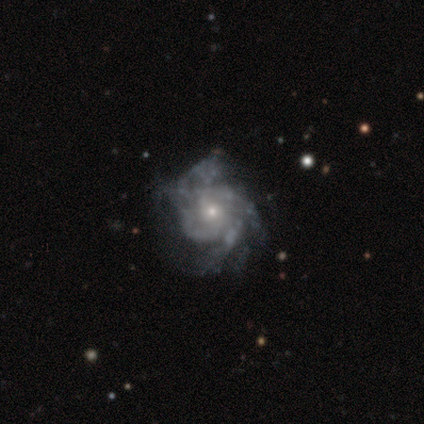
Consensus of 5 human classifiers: Smooth or featured?
  - featured or disk: 80% *
  - star or artifact: 20%
  - smooth: 0%
Edge-on disk?
  - no: 100% *
  - yes: 0%
Bar?
  - no: 75% *
  - weak: 25%
  - strong: 0%
Spiral arms?
  - yes: 100% *
  - no: 0%
Spiral winding?
  - medium: 75% *
  - loose: 25%
  - tight: 0%
Spiral arm count?
  - 3: 50% *
  - 4: 25%
  - can't tell: 25%
  - 1: 0%
  - 2: 0%
  - more than 4: 0%
Bulge size?
  - small: 100% *
  - dominant: 0%
  - large: 0%
  - moderate: 0%
  - none: 0%
Merging?
  - none: 75% *
  - minor disturbance: 25%
  - major disturbance: 0%
  - merger: 0%